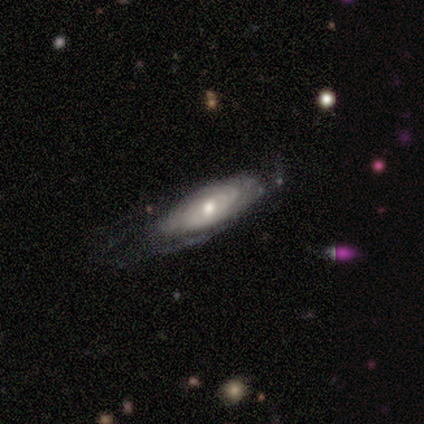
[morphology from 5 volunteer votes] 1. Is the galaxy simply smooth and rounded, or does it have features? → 80% featured or disk, 20% star or artifact, 0% smooth.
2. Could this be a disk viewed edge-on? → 75% no, 25% yes.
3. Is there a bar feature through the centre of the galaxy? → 67% no, 33% strong, 0% weak.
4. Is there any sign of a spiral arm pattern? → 100% yes, 0% no.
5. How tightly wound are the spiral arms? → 67% tight, 33% medium, 0% loose.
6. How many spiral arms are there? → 100% can't tell, 0% 1, 0% 2, 0% 3, 0% 4, 0% more than 4.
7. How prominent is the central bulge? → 67% moderate, 33% small, 0% dominant, 0% large, 0% none.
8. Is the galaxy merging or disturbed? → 50% none, 25% minor disturbance, 25% major disturbance, 0% merger.